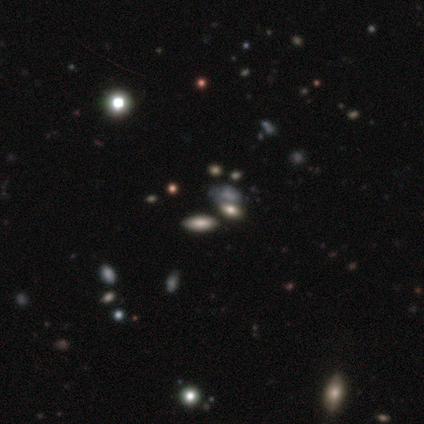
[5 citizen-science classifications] This is marginally a smooth galaxy (40%, tied with featured or disk). How rounded: clearly in between (100%). Merging: possibly none (50%, tied with merger).